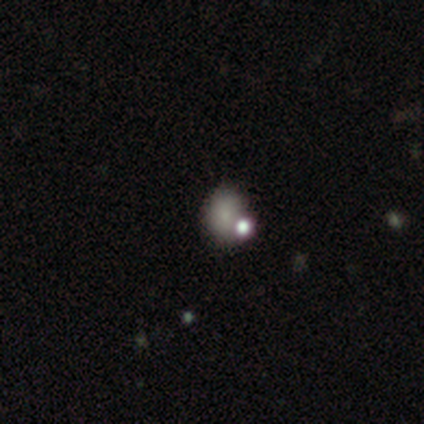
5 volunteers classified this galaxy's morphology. smooth-or-featured: smooth: 60% | featured or disk: 20% | star or artifact: 20%
  how-rounded: round: 67% | in between: 33% | cigar-shaped: 0%
  merging: none: 50% (tied) | major disturbance: 50% (tied) | minor disturbance: 0% | merger: 0%